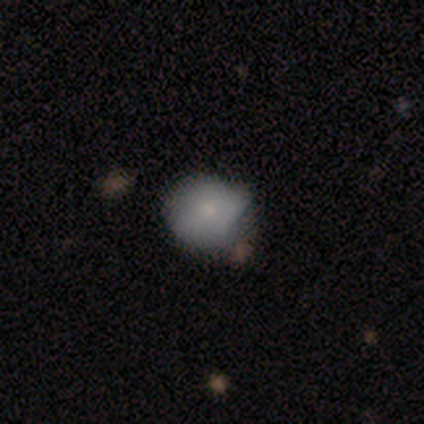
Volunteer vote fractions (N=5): smooth-or-featured: smooth: 80% | featured or disk: 20% | star or artifact: 0%
  how-rounded: round: 75% | in between: 25% | cigar-shaped: 0%
  merging: none: 60% | major disturbance: 40% | minor disturbance: 0% | merger: 0%